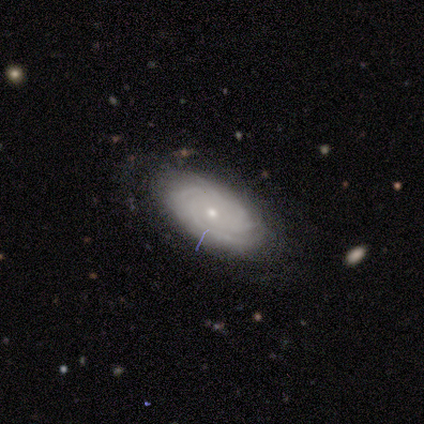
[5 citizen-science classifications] Smooth or featured? 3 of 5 (60%) said smooth. How rounded? 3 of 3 (100%) said in between. Merging? 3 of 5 (60%) said none.